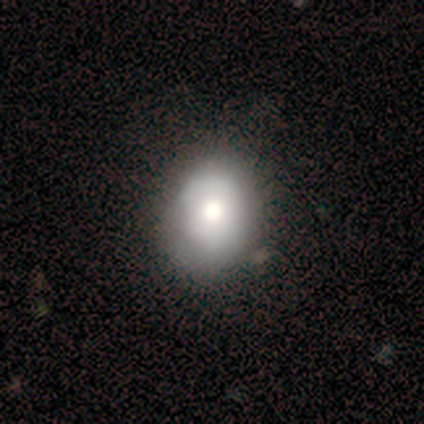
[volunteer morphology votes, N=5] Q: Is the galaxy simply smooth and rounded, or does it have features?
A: smooth — 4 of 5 (80%).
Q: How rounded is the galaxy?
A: in between — 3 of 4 (75%).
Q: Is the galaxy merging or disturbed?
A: none — 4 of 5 (80%).